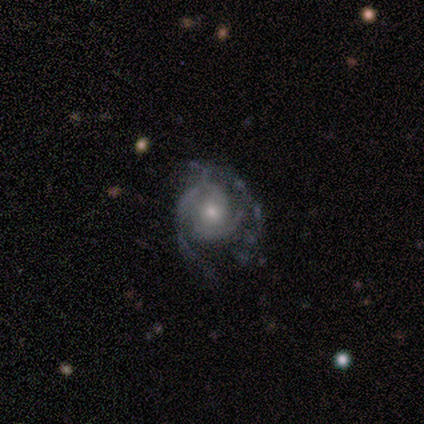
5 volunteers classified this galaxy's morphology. type=featured or disk (80%); edge-on=no (100%); bar=no (100%); spiral arms=yes (75%); winding=medium (67%); arm count=can't tell (67%); bulge=moderate (50%, tied with small); merging=major disturbance (60%).